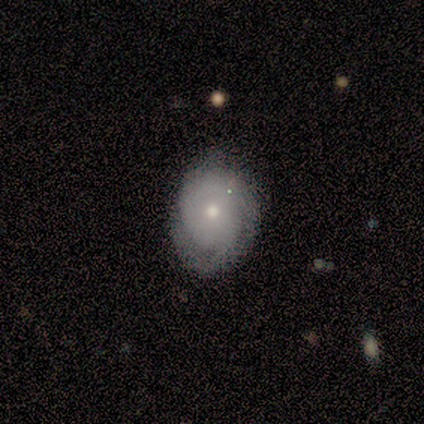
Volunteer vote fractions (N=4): Smooth or featured: featured or disk — 100%
Edge-on disk: no — 100%
Bar: no — 100%
Spiral arms: yes — 100%
Spiral winding: loose — 50% (tight — 25%)
Spiral arm count: can't tell — 50% (1 — 25%)
Bulge size: moderate — 50% (tied with small — 50%)
Merging: none — 100%